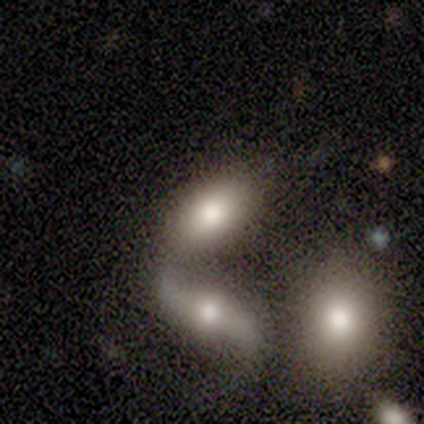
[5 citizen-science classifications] Overall: smooth (100%). How rounded: in between (80%). Merging: none (40%, tied with merger).